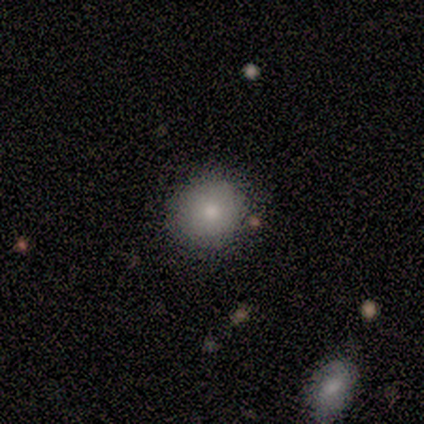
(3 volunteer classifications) Overall: smooth (67%; featured or disk 33%). How rounded: round (100%). Merging: none (100%).